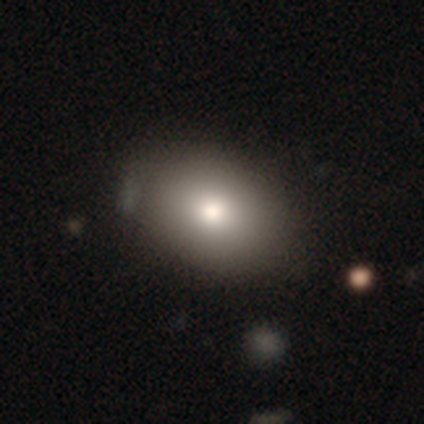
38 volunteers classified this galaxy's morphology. smooth-or-featured: smooth: 89% | featured or disk: 5% | star or artifact: 5%
  how-rounded: in between: 82% | round: 18% | cigar-shaped: 0%
  merging: none: 47% | minor disturbance: 14% | merger: 8% | major disturbance: 3%